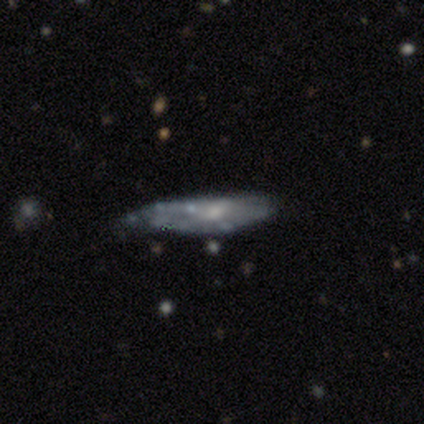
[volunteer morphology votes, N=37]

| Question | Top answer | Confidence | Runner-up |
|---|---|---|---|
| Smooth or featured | featured or disk | 49% | smooth (46%) |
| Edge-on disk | no | 61% | yes (39%) |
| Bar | no | 100% | — |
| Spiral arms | no | 73% | yes (27%) |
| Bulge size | none | 36% | moderate (27%) |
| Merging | minor disturbance | 37% | none (31%) |